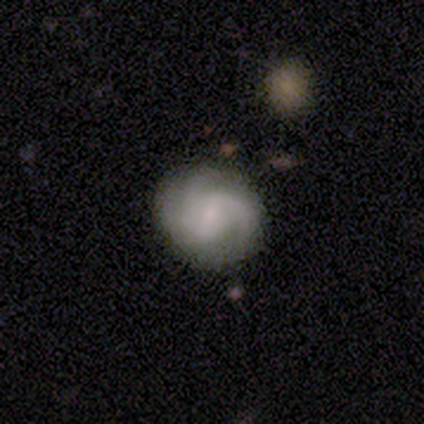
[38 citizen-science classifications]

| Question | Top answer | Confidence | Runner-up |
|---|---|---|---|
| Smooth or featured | featured or disk | 71% | smooth (21%) |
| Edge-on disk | no | 96% | yes (4%) |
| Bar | weak | 65% | no (23%) |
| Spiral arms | yes | 96% | no (4%) |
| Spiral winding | medium | 52% | tight (36%) |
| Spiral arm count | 3 | 44% | 2 (36%) |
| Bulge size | small | 46% | moderate (35%) |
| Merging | none | 83% | minor disturbance (9%) |